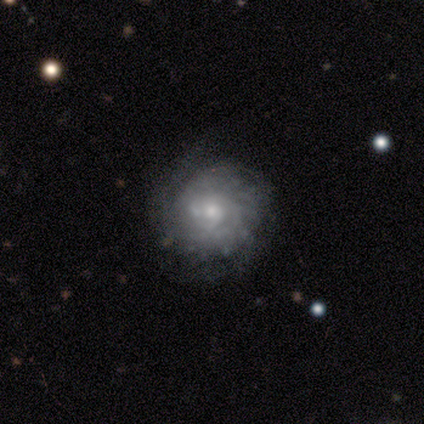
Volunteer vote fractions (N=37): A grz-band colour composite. It shows a featured or disk galaxy (81%) with no bar (89%), tight (68%) spiral arms (89%) and a moderate central bulge (50%). Merging: none (64%).